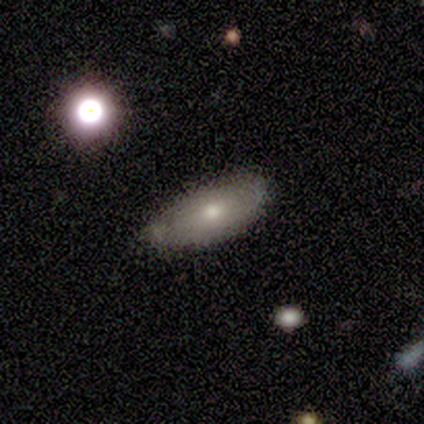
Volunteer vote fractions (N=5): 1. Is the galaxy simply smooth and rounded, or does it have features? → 60% smooth, 20% featured or disk, 20% star or artifact.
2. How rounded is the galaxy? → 100% in between, 0% round, 0% cigar-shaped.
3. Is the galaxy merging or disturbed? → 75% none, 25% minor disturbance, 0% major disturbance, 0% merger.